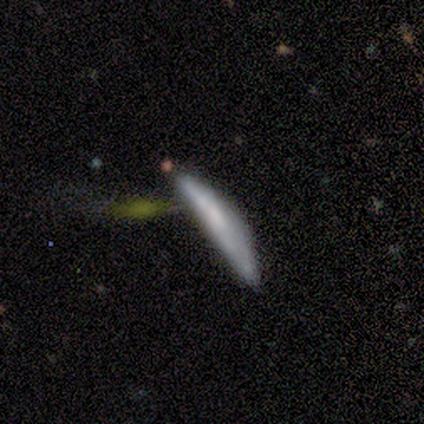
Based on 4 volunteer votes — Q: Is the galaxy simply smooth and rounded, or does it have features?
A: smooth — 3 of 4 (75%).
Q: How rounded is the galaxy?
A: cigar-shaped — 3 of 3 (100%).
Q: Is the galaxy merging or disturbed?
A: major disturbance — 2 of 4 (50%).